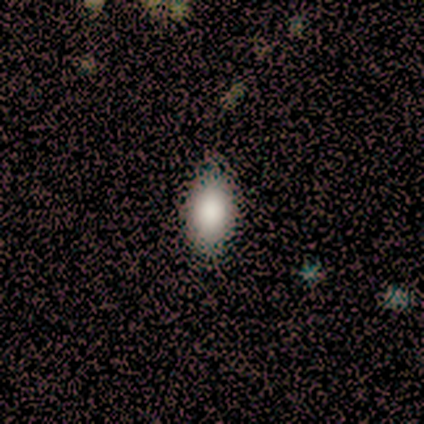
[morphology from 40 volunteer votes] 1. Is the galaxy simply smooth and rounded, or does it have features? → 82% smooth, 10% star or artifact, 8% featured or disk.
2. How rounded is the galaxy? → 100% in between, 0% round, 0% cigar-shaped.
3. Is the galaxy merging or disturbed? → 72% none, 6% minor disturbance, 0% major disturbance, 0% merger.